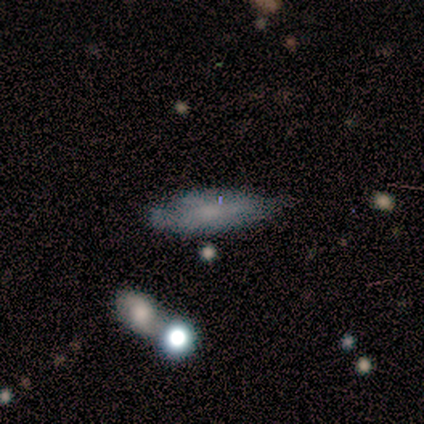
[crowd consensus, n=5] Smooth or featured? 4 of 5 (80%) said smooth. How rounded? 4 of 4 (100%) said in between. Merging? 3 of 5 (60%) said minor disturbance.